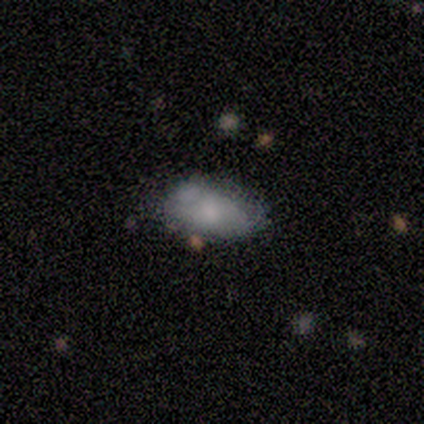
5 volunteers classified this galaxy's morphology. Smooth or featured?
  - smooth: 80% *
  - featured or disk: 20%
  - star or artifact: 0%
How rounded?
  - in between: 100% *
  - round: 0%
  - cigar-shaped: 0%
Merging?
  - none: 100% *
  - minor disturbance: 0%
  - major disturbance: 0%
  - merger: 0%